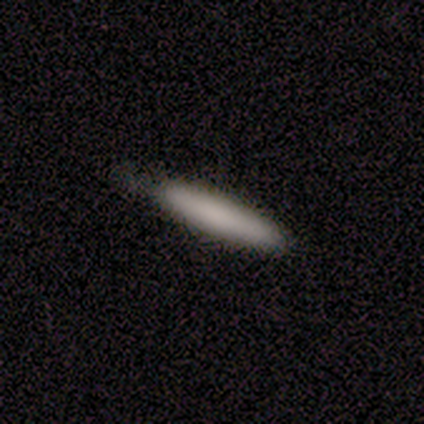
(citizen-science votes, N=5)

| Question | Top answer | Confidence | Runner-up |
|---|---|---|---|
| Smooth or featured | smooth | 100% | — |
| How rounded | cigar-shaped | 80% | in between (20%) |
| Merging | none | 60% | minor disturbance (40%) |